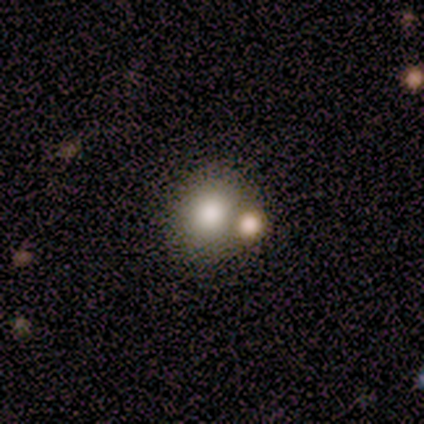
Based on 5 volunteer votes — Smooth or featured? 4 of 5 (80%) said smooth. How rounded? 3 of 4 (75%) said round. Merging? 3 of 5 (60%) said merger.